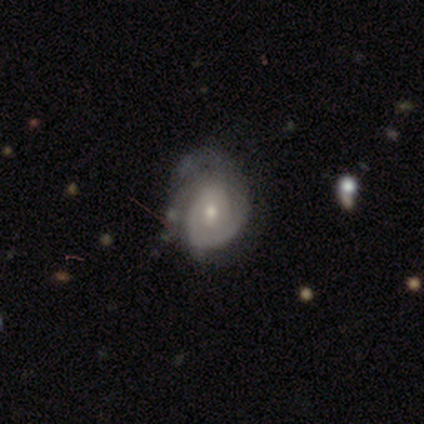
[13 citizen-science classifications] Smooth or featured? featured or disk (85%)
Edge-on disk? no (100%)
Bar? no (55%)
Spiral arms? yes (91%)
Spiral winding? tight (70%)
Spiral arm count? 2 (70%)
Bulge size? small (64%)
Merging? none (46%)